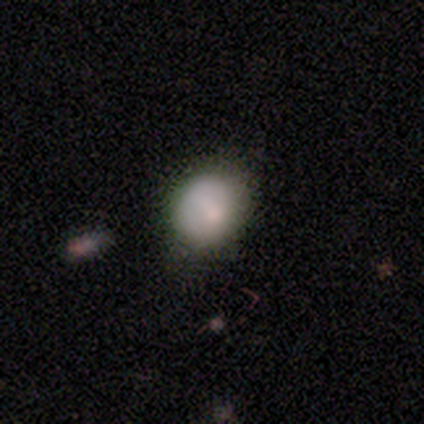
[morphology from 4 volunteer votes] smooth_or_featured: smooth (p=0.75) [alt: featured or disk p=0.25]
how_rounded: round (p=0.67) [alt: in between p=0.33]
merging: none (p=1.00)